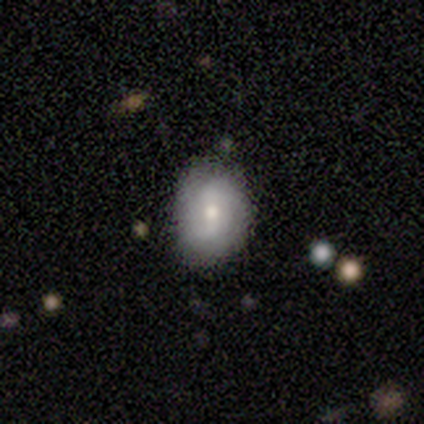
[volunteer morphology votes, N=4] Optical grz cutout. It shows a smooth galaxy with no disk features (50%, tied with featured or disk) that is round (50%, tied with in between). Merging: none (75%).